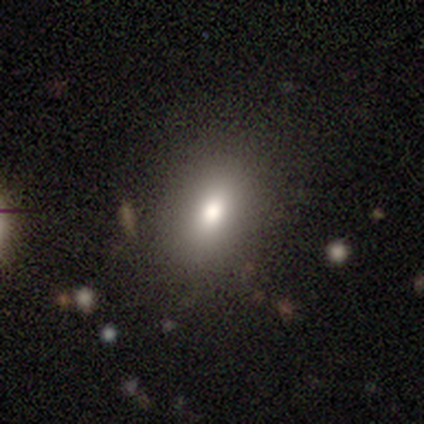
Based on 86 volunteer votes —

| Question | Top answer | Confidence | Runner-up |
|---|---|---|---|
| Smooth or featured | smooth | 74% | featured or disk (14%) |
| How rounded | in between | 80% | round (12%) |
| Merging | none | 83% | minor disturbance (12%) |